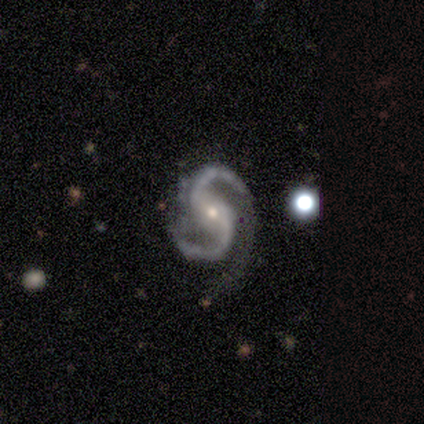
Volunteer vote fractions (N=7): Q: Smooth or featured?
A: featured or disk (100%)
Q: Edge-on disk?
A: no (86%); runner-up: yes (14%)
Q: Bar?
A: strong (67%); runner-up: no (33%)
Q: Spiral arms?
A: yes (100%)
Q: Spiral winding?
A: medium (67%); runner-up: loose (33%)
Q: Spiral arm count?
A: 2 (83%); runner-up: 3 (17%)
Q: Bulge size?
A: moderate (50%); tied with: small (50%)
Q: Merging?
A: none (71%); runner-up: minor disturbance (29%)